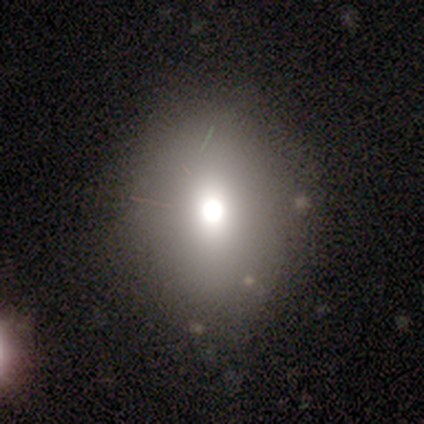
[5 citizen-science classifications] Smooth or featured?
  - smooth: 80% *
  - featured or disk: 20%
  - star or artifact: 0%
How rounded?
  - in between: 75% *
  - round: 25%
  - cigar-shaped: 0%
Merging?
  - none: 60% *
  - merger: 40%
  - minor disturbance: 0%
  - major disturbance: 0%